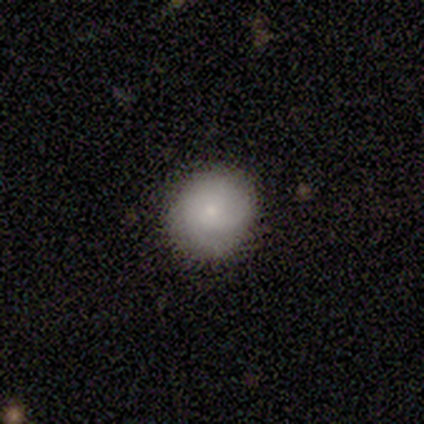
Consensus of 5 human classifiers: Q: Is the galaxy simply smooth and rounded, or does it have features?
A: smooth — 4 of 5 (80%).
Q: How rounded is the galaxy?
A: round — 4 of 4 (100%).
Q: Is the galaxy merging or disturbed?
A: none — 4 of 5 (80%).